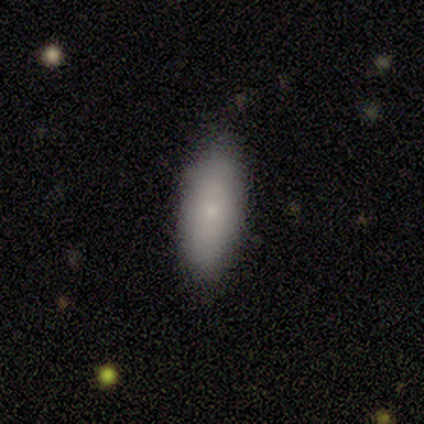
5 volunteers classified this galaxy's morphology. Volunteers were most divided on "how rounded": in between: 60%, cigar-shaped: 40%, round: 0%. More confident: smooth or featured — smooth (100%); merging — none (80%).